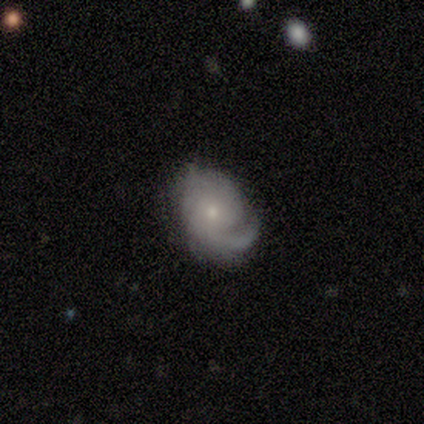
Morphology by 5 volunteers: This appears to be a featured or disk galaxy (100%) with no bar (50%), tight (50%, tied with medium) spiral arms (100%) and a small central bulge (100%). Merging: minor disturbance (60%).